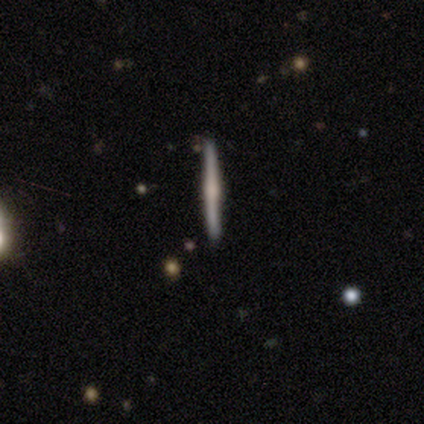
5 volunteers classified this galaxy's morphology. Smooth or featured: featured or disk — 80% (star or artifact — 20%)
Edge-on disk: yes — 100%
Edge-on bulge: rounded — 75% (boxy — 25%)
Merging: none — 100%